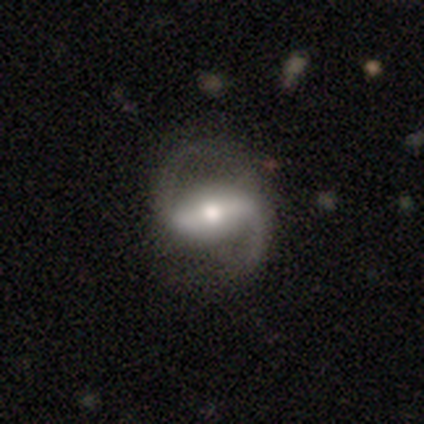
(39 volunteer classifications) Smooth or featured? featured or disk (97%)
Edge-on disk? no (97%)
Bar? strong (81%)
Spiral arms? yes (97%)
Spiral winding? loose (61%)
Spiral arm count? 2 (92%)
Bulge size? moderate (73%)
Merging? none (56%)